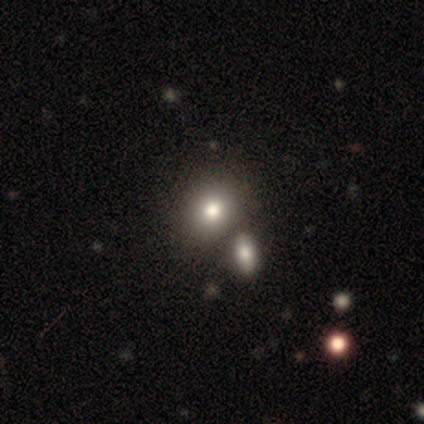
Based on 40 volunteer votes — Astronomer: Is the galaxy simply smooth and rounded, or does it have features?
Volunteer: smooth — 82%.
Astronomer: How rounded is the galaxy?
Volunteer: round — 61% (runner-up: in between, 39%).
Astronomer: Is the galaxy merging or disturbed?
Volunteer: merger — 43% (runner-up: none, 30%).